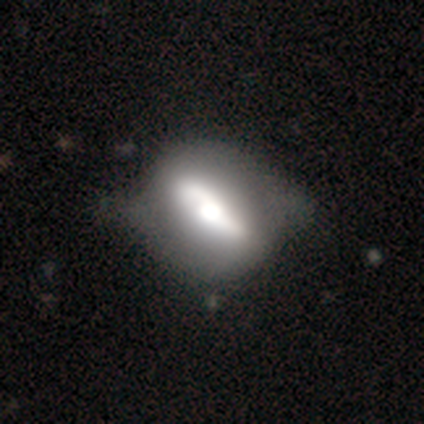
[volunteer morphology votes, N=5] featured or disk 60%, smooth 40%, star or artifact 0%. Down the decision tree: edge-on disk — no (100%); bar — strong (100%); spiral arms — no (100%); bulge size — moderate (67%); merging — none (40%, tied with minor disturbance).